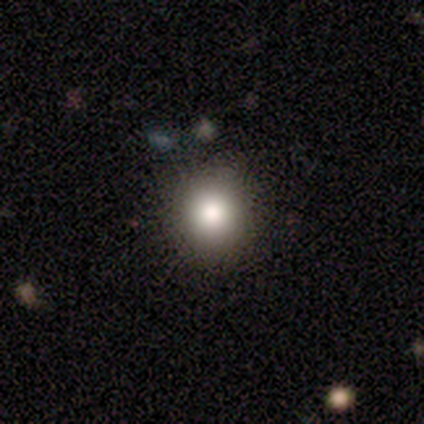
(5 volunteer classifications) This is likely a smooth galaxy (60%). How rounded: clearly round (100%). Merging: clearly none (100%).